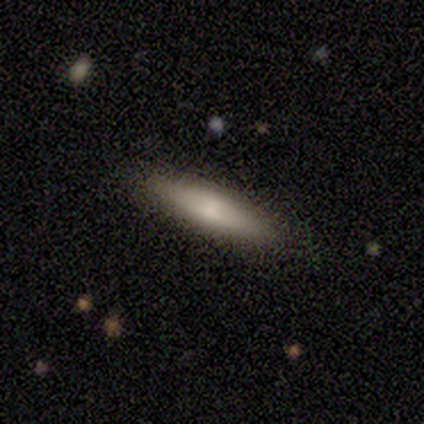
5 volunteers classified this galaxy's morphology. Volunteers were most divided on "smooth or featured": featured or disk: 60%, smooth: 40%, star or artifact: 0%. More confident: edge-on disk — yes (100%); merging — none (80%); edge-on bulge — none (67%).